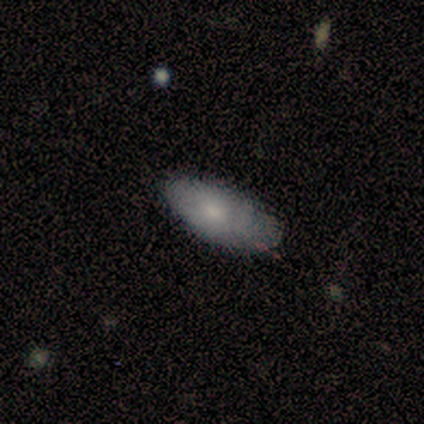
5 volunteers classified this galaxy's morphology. Q: Smooth or featured?
A: smooth (80%); runner-up: featured or disk (20%)
Q: How rounded?
A: in between (100%)
Q: Merging?
A: none (80%); runner-up: minor disturbance (20%)